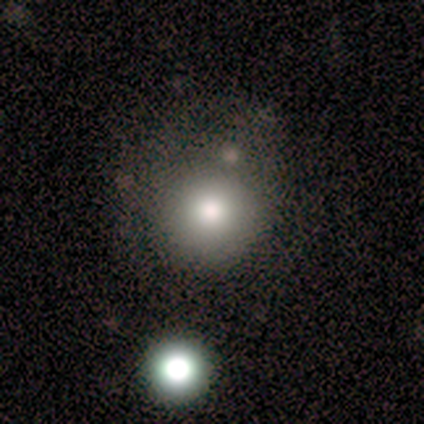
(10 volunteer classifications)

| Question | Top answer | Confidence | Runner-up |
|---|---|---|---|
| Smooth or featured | smooth | 90% | star or artifact (10%) |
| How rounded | round | 100% | — |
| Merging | none | 67% | minor disturbance (33%) |